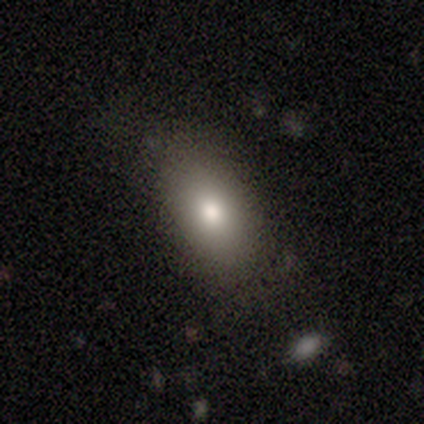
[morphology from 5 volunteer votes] Smooth or featured? smooth (80%)
How rounded? round (50%, tied with in between)
Merging? none (80%)